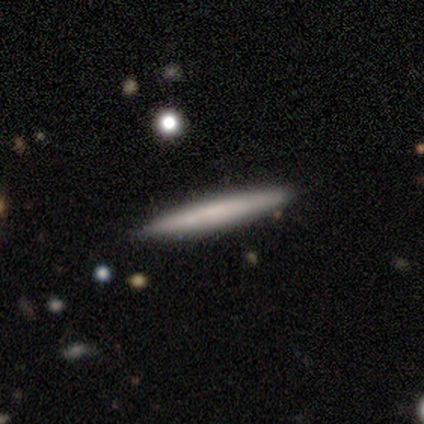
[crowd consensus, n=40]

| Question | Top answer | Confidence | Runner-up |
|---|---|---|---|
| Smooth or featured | smooth | 70% | featured or disk (25%) |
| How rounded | cigar-shaped | 100% | — |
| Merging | none | 82% | minor disturbance (16%) |